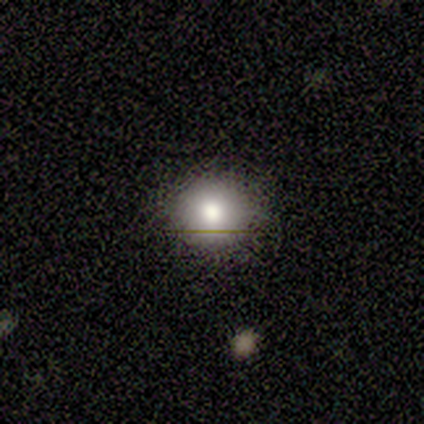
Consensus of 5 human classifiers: A smooth galaxy with no disk features (60%) that is round (100%).

Vote fractions:
- Smooth or featured? smooth: 60% / featured or disk: 20% / star or artifact: 20%
- How rounded? round: 100% / in between: 0% / cigar-shaped: 0%
- Merging? none: 100% / minor disturbance: 0% / major disturbance: 0% / merger: 0%